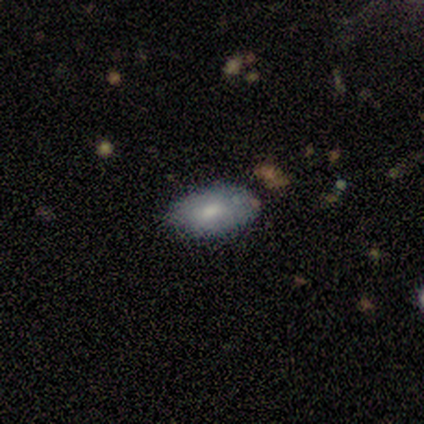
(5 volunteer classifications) smooth_or_featured: smooth (p=1.00)
how_rounded: in between (p=0.80) [alt: cigar-shaped p=0.20]
merging: none (p=1.00)